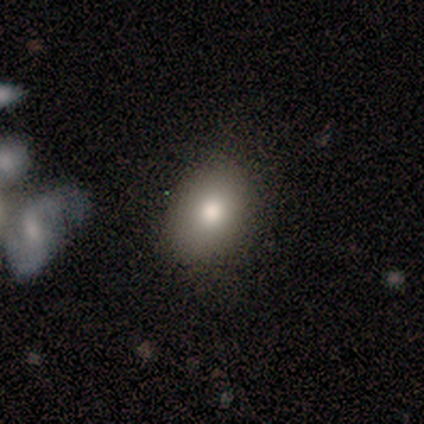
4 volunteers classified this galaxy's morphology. type=smooth (75%); roundness=in between (67%); merging=none (100%).